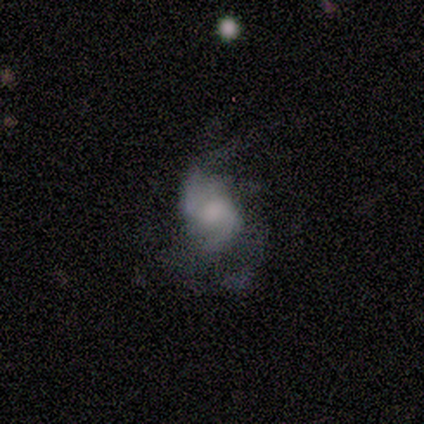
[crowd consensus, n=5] smooth-or-featured: featured or disk: 100% | smooth: 0% | star or artifact: 0%
  disk-edge-on: no: 100% | yes: 0%
    bar: weak: 60% | no: 40% | strong: 0%
    has-spiral-arms: yes: 100% | no: 0%
      spiral-winding: medium: 80% | tight: 20% | loose: 0%
      spiral-arm-count: 4: 40% | 1: 20% | 2: 20% | can't tell: 20% | 3: 0% | more than 4: 0%
    bulge-size: moderate: 80% | large: 20% | dominant: 0% | small: 0% | none: 0%
  merging: none: 40% (tied) | minor disturbance: 40% (tied) | major disturbance: 20% | merger: 0%